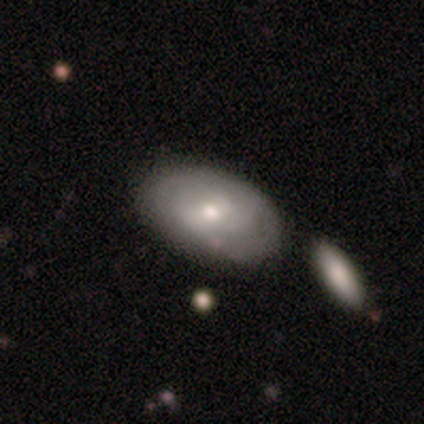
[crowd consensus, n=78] Volunteers were most divided on "merging": none: 25%, merger: 18%, minor disturbance: 17%, major disturbance: 3%. More confident: edge-on disk — no (93%); spiral arms — yes (83%); spiral arm count — can't tell (69%); spiral winding — tight (60%); bulge size — moderate (60%); smooth or featured — featured or disk (58%); bar — no (55%).